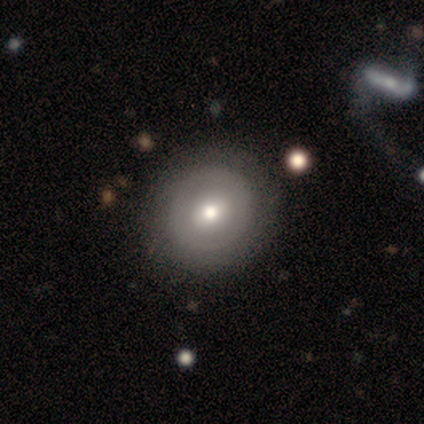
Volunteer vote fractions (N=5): Smooth or featured: smooth — 80% (featured or disk — 20%)
How rounded: round — 100%
Merging: none — 80% (minor disturbance — 20%)